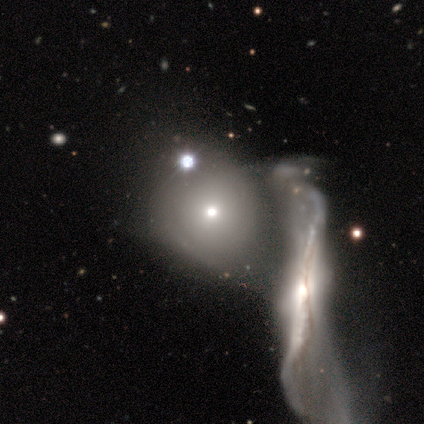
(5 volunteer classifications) Q: Smooth or featured?
A: smooth (60%); runner-up: featured or disk (40%)
Q: How rounded?
A: round (100%)
Q: Merging?
A: merger (80%); runner-up: major disturbance (20%)